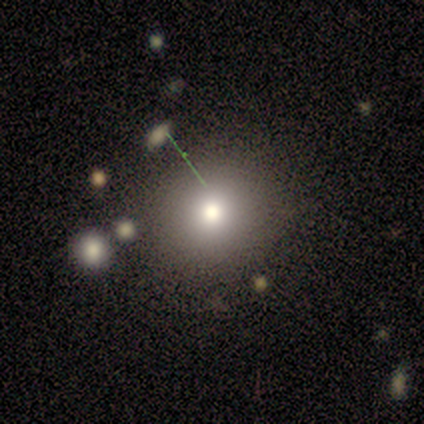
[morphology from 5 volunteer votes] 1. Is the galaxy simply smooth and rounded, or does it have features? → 80% smooth, 20% star or artifact, 0% featured or disk.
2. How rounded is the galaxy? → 75% round, 25% in between, 0% cigar-shaped.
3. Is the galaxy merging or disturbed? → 75% none, 25% minor disturbance, 0% major disturbance, 0% merger.